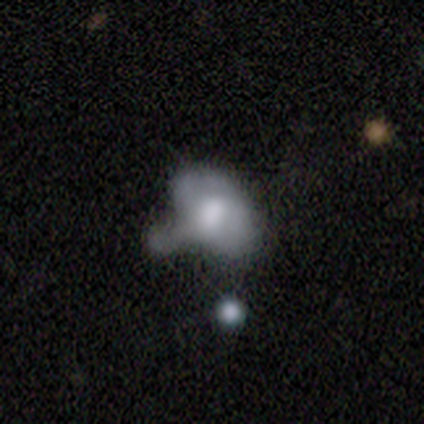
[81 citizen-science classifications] Q: Smooth or featured?
A: smooth (58%); runner-up: featured or disk (35%)
Q: How rounded?
A: in between (77%); runner-up: round (23%)
Q: Merging?
A: merger (27%); runner-up: minor disturbance (15%)